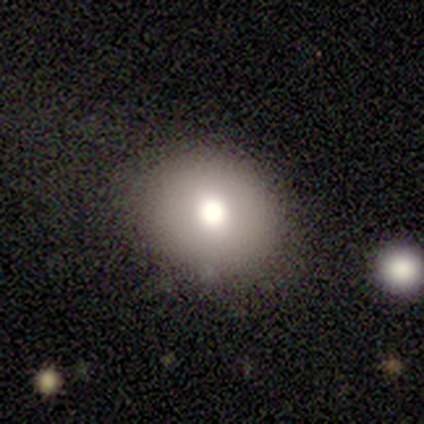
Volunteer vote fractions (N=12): smooth 67%, featured or disk 25%, star or artifact 8%. Down the decision tree: how rounded — round (62%); merging — none (55%).